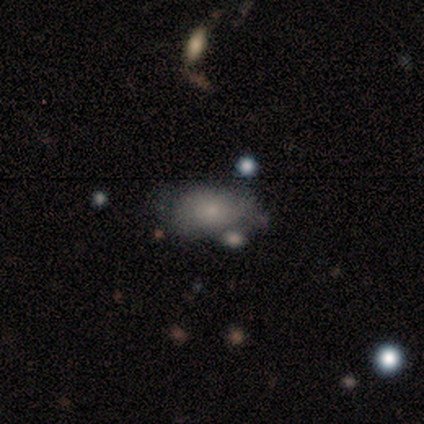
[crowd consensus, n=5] This appears to be a smooth galaxy with no disk features (60%) that is in between round and cigar-shaped (100%). Merging: minor disturbance (60%).